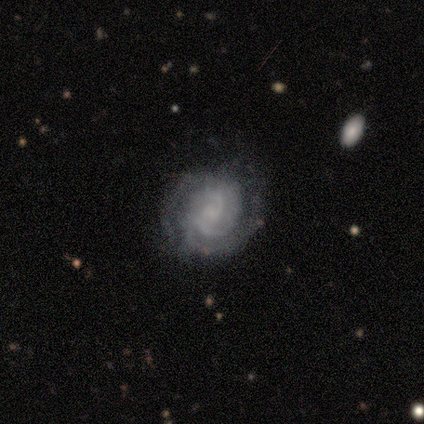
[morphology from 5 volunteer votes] Smooth or featured? 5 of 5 (100%) said featured or disk. Edge-on disk? 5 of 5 (100%) said no. Bar? 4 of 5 (80%) said no. Spiral arms? 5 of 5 (100%) said yes. Spiral winding? 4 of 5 (80%) said tight. Spiral arm count? 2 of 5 (40%, tied with 3) said 2. Bulge size? 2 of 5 (40%, tied with none) said small. Merging? 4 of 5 (80%) said none.